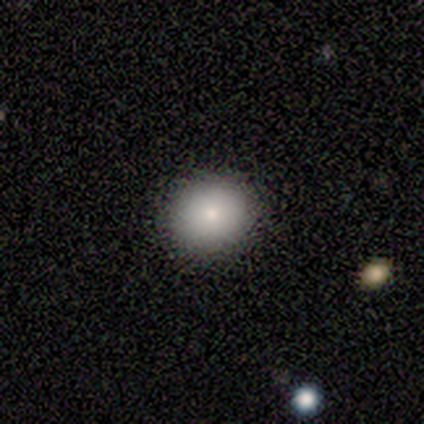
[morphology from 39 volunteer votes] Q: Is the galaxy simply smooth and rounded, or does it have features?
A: smooth — 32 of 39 (82%).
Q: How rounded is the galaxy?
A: round — 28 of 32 (88%).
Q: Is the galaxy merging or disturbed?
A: none — 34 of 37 (92%).